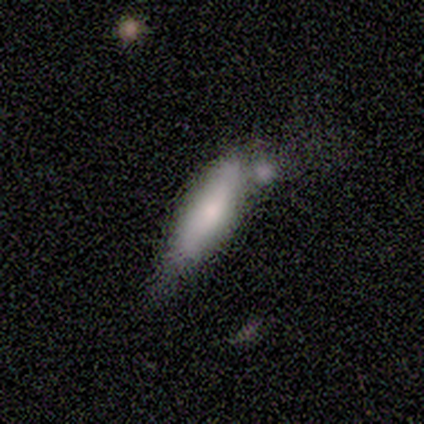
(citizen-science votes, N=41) Smooth or featured: smooth — 66% (featured or disk — 34%)
How rounded: in between — 52% (cigar-shaped — 48%)
Merging: minor disturbance — 37% (merger — 32%)